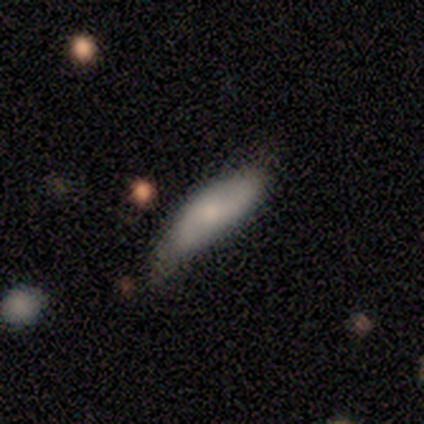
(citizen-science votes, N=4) This appears to be a featured or disk galaxy (75%) with a weak bar (50%, tied with no), 2 (100%) loose (100%) spiral arms (50%, tied with no) and a large central bulge (50%, tied with small). Merging: minor disturbance (100%).